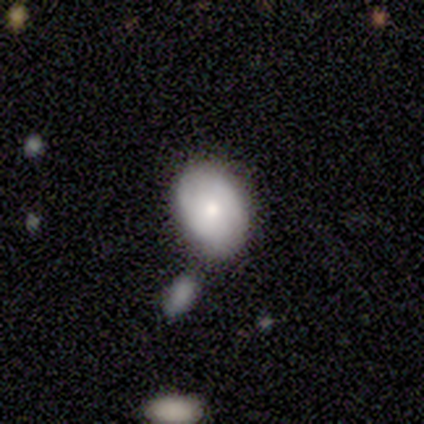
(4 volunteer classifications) This appears to be a smooth galaxy with no disk features (75%) that is in between round and cigar-shaped (67%). Merging: none (100%).